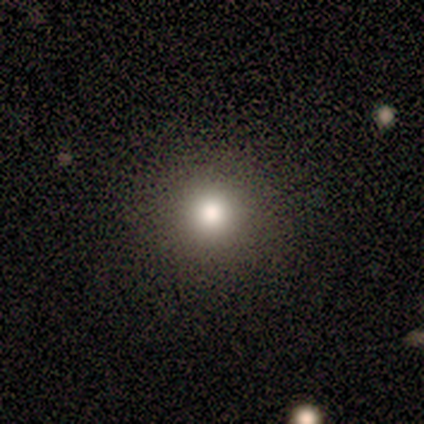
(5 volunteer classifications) This is likely a star or artifact rather than a galaxy (60%).